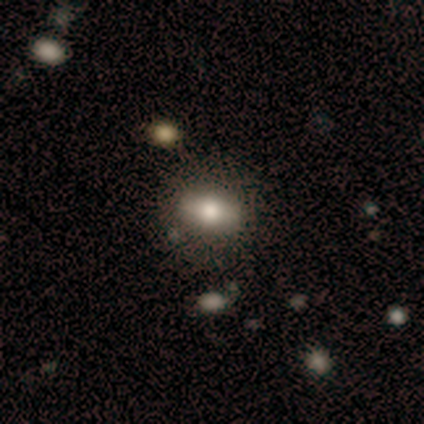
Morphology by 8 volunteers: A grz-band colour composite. It shows a smooth galaxy with no disk features (50%) that is in between round and cigar-shaped (100%). Merging: none (83%).